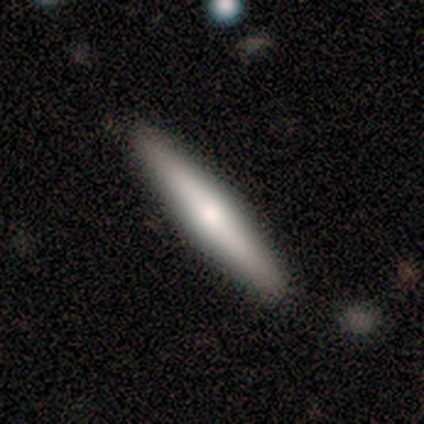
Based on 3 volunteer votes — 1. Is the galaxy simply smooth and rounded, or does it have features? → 67% featured or disk, 33% smooth, 0% star or artifact.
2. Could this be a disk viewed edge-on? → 50% yes (tied), 50% no (tied).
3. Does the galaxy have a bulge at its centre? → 100% rounded, 0% boxy, 0% none.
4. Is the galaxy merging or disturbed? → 67% none, 33% minor disturbance, 0% major disturbance, 0% merger.